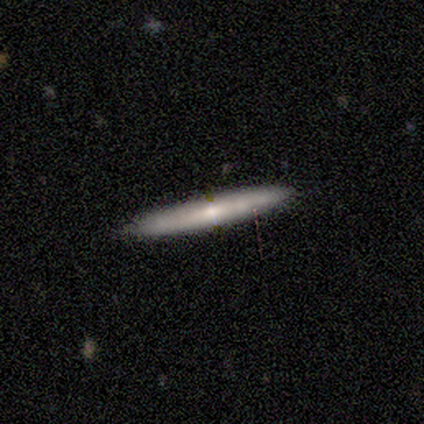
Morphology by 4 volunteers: Smooth or featured?
  - smooth: 50% *
  - featured or disk: 25%
  - star or artifact: 25%
How rounded?
  - cigar-shaped: 100% *
  - round: 0%
  - in between: 0%
Merging?
  - none: 67% *
  - minor disturbance: 33%
  - major disturbance: 0%
  - merger: 0%